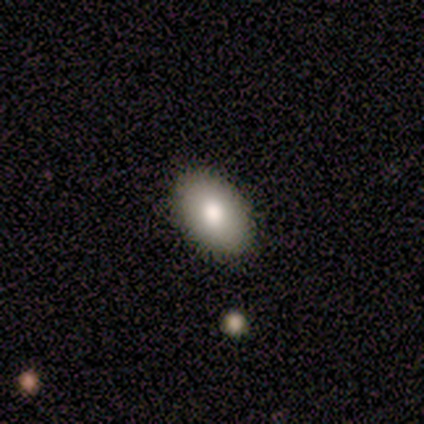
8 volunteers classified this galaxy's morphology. This is clearly a smooth galaxy (88%). How rounded: clearly in between (100%). Merging: clearly none (100%).